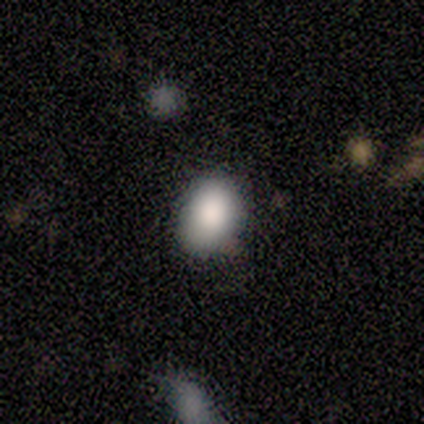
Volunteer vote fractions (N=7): A smooth galaxy with no disk features (71%) that is in between round and cigar-shaped (60%).

Vote fractions:
- Smooth or featured? smooth: 71% / featured or disk: 14% / star or artifact: 14%
- How rounded? in between: 60% / round: 40% / cigar-shaped: 0%
- Merging? minor disturbance: 67% / none: 33% / major disturbance: 0% / merger: 0%